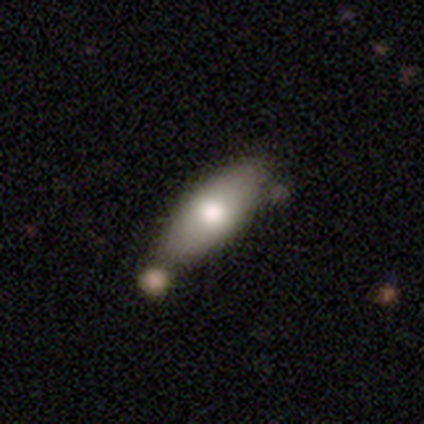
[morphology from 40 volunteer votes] Smooth or featured? smooth (78%)
How rounded? in between (100%)
Merging? none (46%)